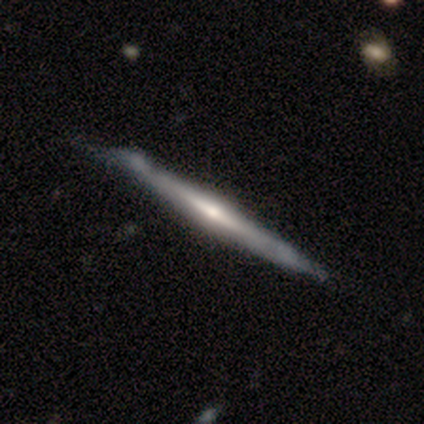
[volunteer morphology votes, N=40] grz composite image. It shows a featured or disk galaxy (90%) viewed edge-on (94%) with a rounded central bulge (74%). Merging: minor disturbance (35%).